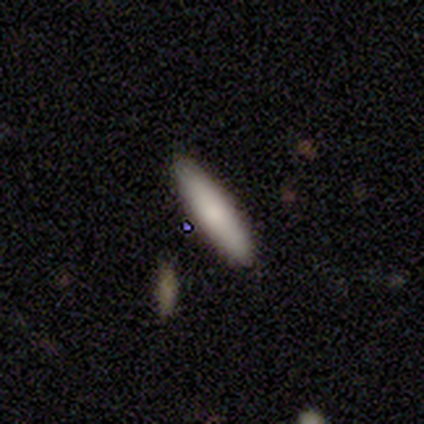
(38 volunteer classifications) smooth_or_featured: smooth (p=0.76) [alt: featured or disk p=0.16]
how_rounded: cigar-shaped (p=0.69) [alt: in between p=0.31]
merging: none (p=0.77) [alt: minor disturbance p=0.17]